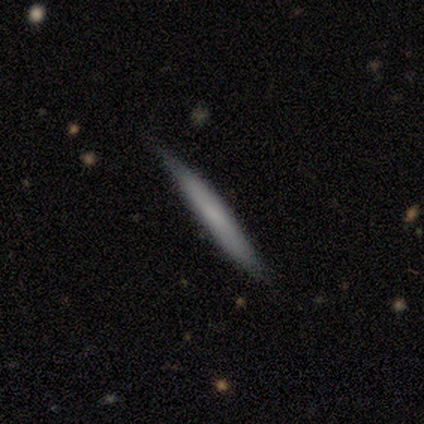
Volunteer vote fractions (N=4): Smooth or featured? 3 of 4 (75%) said featured or disk. Edge-on disk? 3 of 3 (100%) said yes. Edge-on bulge? 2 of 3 (67%) said none. Merging? 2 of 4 (50%, tied with minor disturbance) said none.